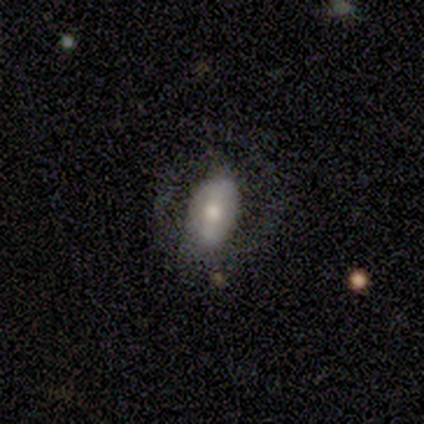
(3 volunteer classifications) This appears to be a smooth galaxy with no disk features (67%) that is in between round and cigar-shaped (100%). Merging: none (67%).